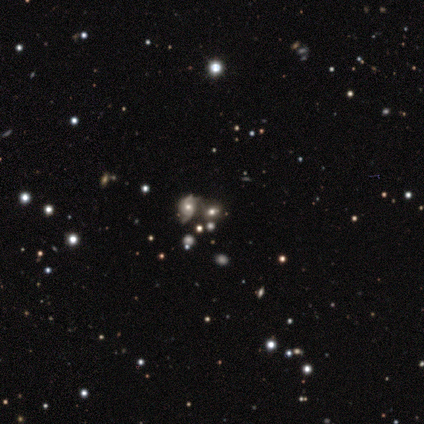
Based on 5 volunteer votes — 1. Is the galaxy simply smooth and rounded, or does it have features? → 80% star or artifact, 20% smooth, 0% featured or disk.